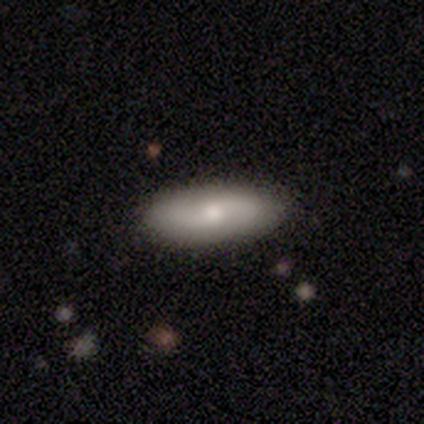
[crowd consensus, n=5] A smooth galaxy with no disk features (60%) that is in between round and cigar-shaped (100%). Merging: none (100%).